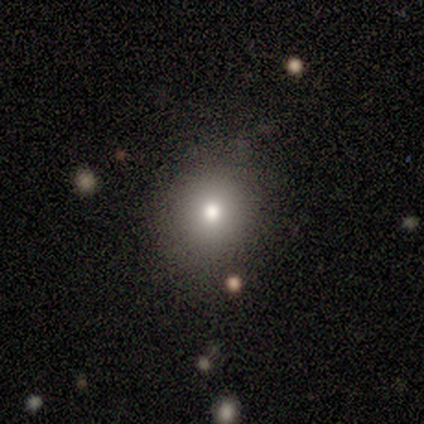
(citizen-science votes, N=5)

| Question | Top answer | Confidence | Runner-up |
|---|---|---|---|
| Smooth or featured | smooth | 60% | featured or disk (20%) |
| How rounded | round | 100% | — |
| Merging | none | 75% | minor disturbance (25%) |